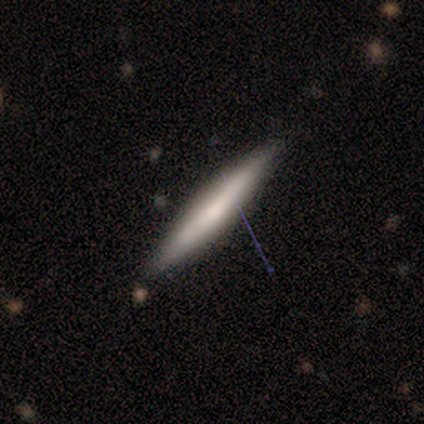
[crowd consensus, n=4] Smooth or featured?
  - smooth: 50% *
  - featured or disk: 25%
  - star or artifact: 25%
How rounded?
  - cigar-shaped: 100% *
  - round: 0%
  - in between: 0%
Merging?
  - none: 100% *
  - minor disturbance: 0%
  - major disturbance: 0%
  - merger: 0%